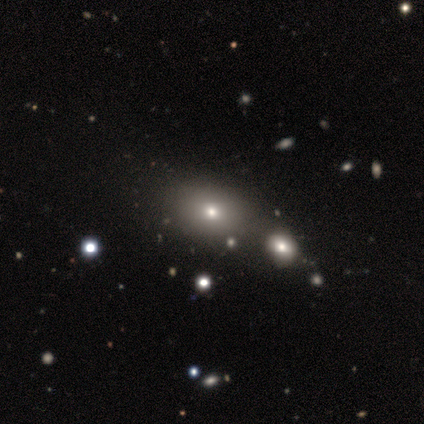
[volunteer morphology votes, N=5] Smooth or featured?
  - star or artifact: 80% *
  - smooth: 20%
  - featured or disk: 0%